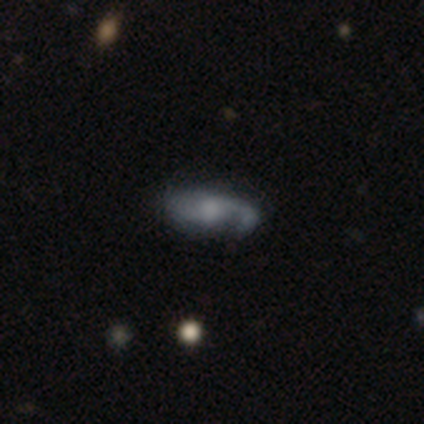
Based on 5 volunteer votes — Smooth or featured? 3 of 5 (60%) said featured or disk. Edge-on disk? 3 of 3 (100%) said yes. Edge-on bulge? 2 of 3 (67%) said rounded. Merging? 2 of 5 (40%, tied with major disturbance) said none.